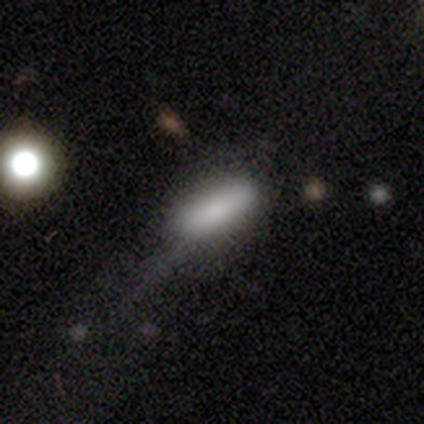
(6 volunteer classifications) Q: Smooth or featured?
A: smooth (100%)
Q: How rounded?
A: in between (100%)
Q: Merging?
A: minor disturbance (50%); runner-up: major disturbance (33%)